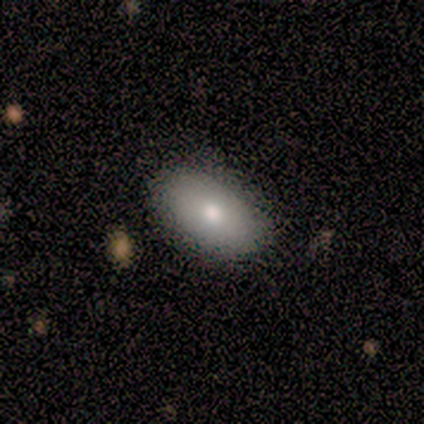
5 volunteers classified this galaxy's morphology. Smooth or featured: smooth — 100%
How rounded: in between — 100%
Merging: none — 100%